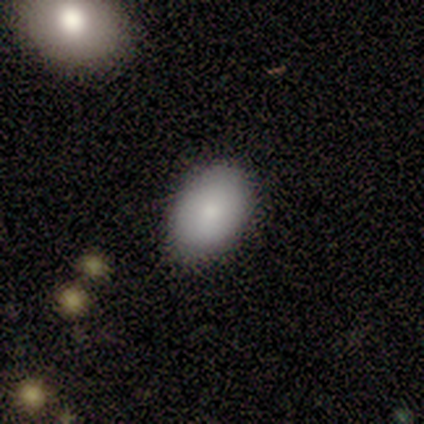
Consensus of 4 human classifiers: Volunteers were most divided on "smooth or featured": smooth: 75%, featured or disk: 25%, star or artifact: 0%. More confident: how rounded — in between (100%); merging — none (75%).